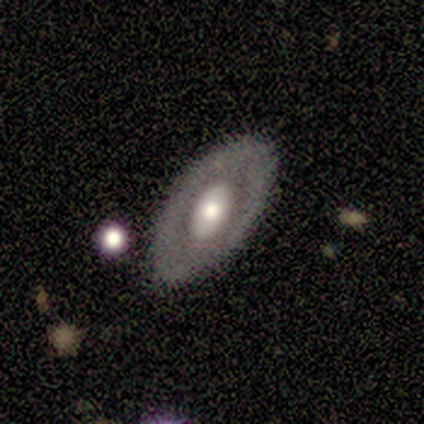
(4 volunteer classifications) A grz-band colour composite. It shows a smooth galaxy with no disk features (50%, tied with featured or disk) that is in between round and cigar-shaped (100%). Merging: none (100%).